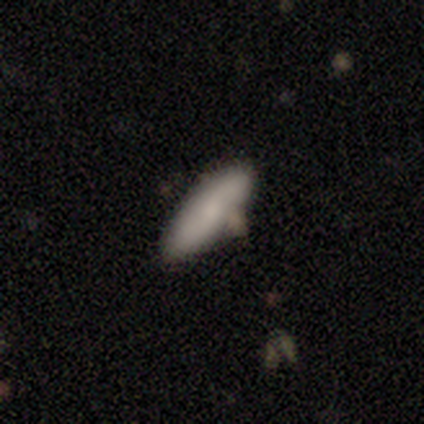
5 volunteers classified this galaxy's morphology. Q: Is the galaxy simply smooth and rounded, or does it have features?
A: smooth — 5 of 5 (100%).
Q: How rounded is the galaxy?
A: in between — 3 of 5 (60%).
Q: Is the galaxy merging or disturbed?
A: none — 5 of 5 (100%).